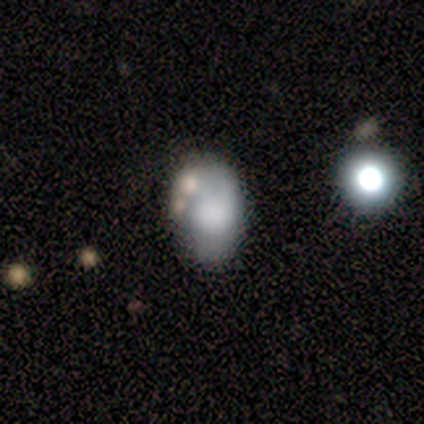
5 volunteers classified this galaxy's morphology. This appears to be a featured or disk galaxy (60%) with no bar (100%), no spiral arms (100%) and a moderate central bulge (67%). Merging: none (50%).